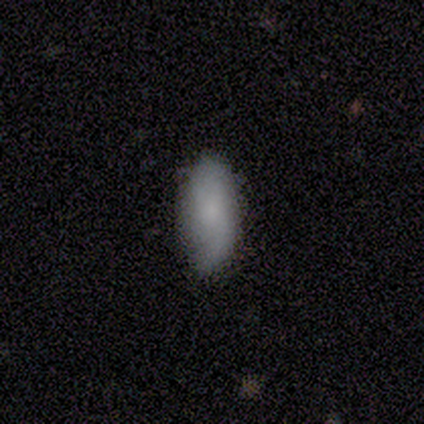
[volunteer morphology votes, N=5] smooth 80%, featured or disk 20%, star or artifact 0%. Down the decision tree: how rounded — in between (100%); merging — none (100%).